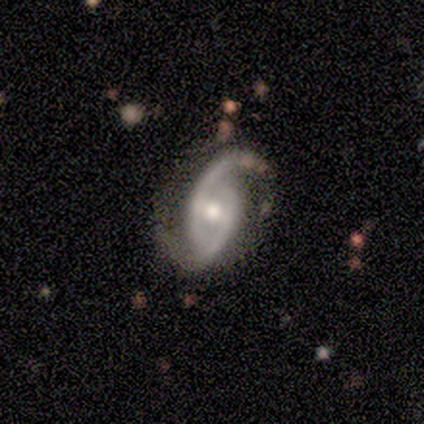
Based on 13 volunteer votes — Smooth or featured? 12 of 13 (92%) said featured or disk. Edge-on disk? 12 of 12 (100%) said no. Bar? 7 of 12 (58%) said no. Spiral arms? 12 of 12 (100%) said yes. Spiral winding? 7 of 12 (58%) said medium. Spiral arm count? 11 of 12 (92%) said 2. Bulge size? 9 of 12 (75%) said moderate. Merging? 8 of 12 (67%) said none.